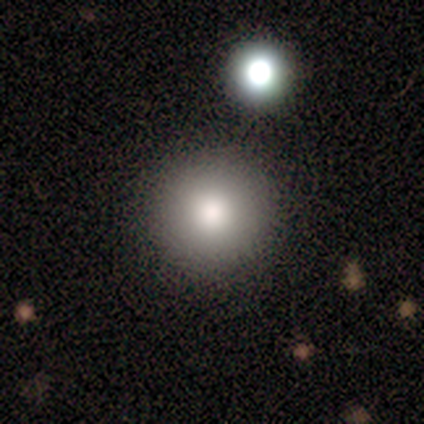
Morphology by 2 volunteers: smooth 50% (tied), star or artifact 50% (tied), featured or disk 0%. Down the decision tree: how rounded — round (100%); merging — none (100%).